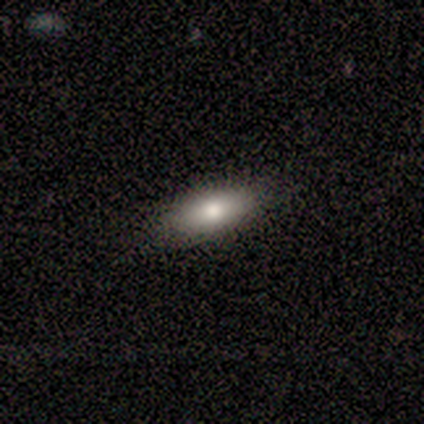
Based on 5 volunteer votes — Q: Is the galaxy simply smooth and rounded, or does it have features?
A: smooth — 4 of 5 (80%).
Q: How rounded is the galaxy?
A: in between — 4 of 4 (100%).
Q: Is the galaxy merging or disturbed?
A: none — 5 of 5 (100%).